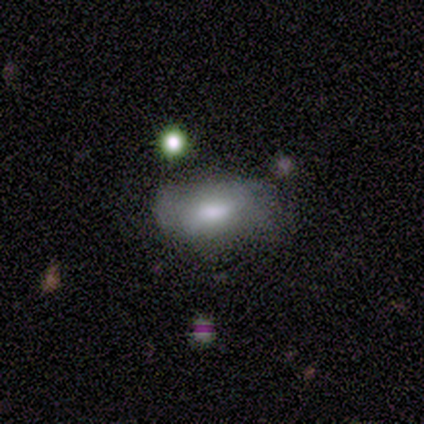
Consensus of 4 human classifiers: A smooth galaxy with no disk features (75%) that is in between round and cigar-shaped (100%).

Vote fractions:
- Smooth or featured? smooth: 75% / featured or disk: 25% / star or artifact: 0%
- How rounded? in between: 100% / round: 0% / cigar-shaped: 0%
- Merging? none: 75% / minor disturbance: 25% / major disturbance: 0% / merger: 0%